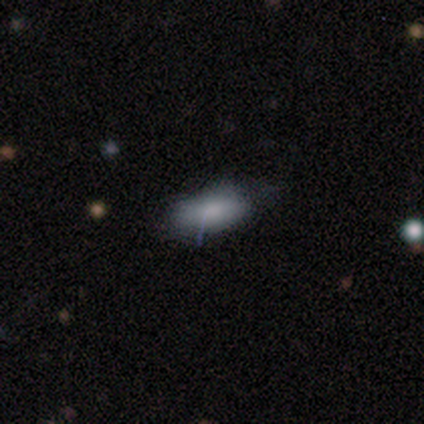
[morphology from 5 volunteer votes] Smooth or featured? smooth (80%)
How rounded? in between (75%)
Merging? none (60%)